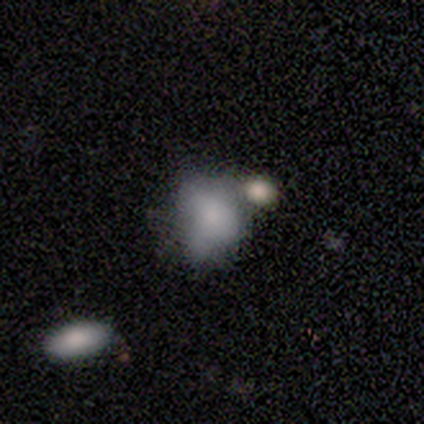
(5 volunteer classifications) This is clearly a smooth galaxy (100%). How rounded: clearly in between (80%). Merging: marginally major disturbance (40%, tied with merger).